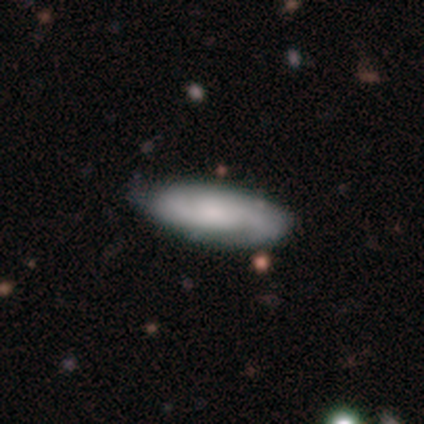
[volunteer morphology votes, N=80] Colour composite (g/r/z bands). It shows a featured or disk galaxy (55%) with no bar (70%), 2 (73%) tight (57%) spiral arms (92%) and a small central bulge (40%). Merging: none (36%).